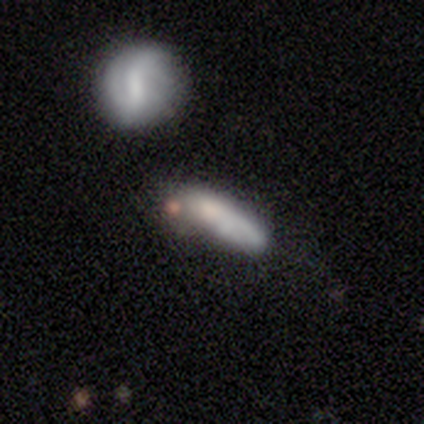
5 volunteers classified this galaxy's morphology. A featured or disk galaxy (60%) viewed edge-on (67%) with a rounded central bulge (100%). Merging: merger (60%).